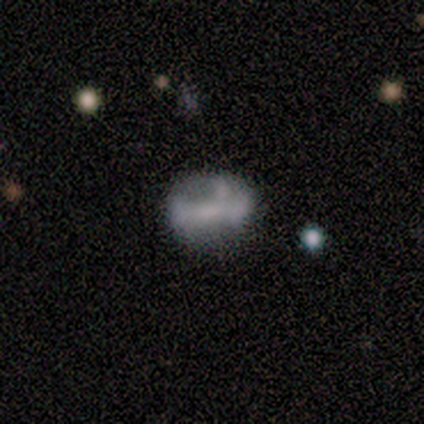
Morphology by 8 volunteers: This appears to be a featured or disk galaxy (75%) with a weak bar (50%), no spiral arms (83%) and a small central bulge (50%, tied with none). Merging: none (50%).